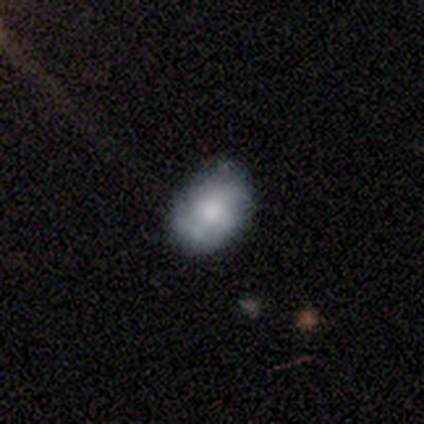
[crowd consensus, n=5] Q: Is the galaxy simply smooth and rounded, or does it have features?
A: smooth — 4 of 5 (80%).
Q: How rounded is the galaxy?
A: in between — 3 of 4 (75%).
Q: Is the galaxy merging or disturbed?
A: none — 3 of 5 (60%).